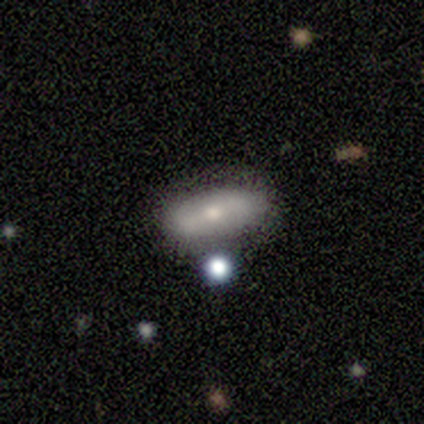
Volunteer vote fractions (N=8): Overall: smooth (75%). How rounded: in between (83%). Merging: none (62%; major disturbance 25%).